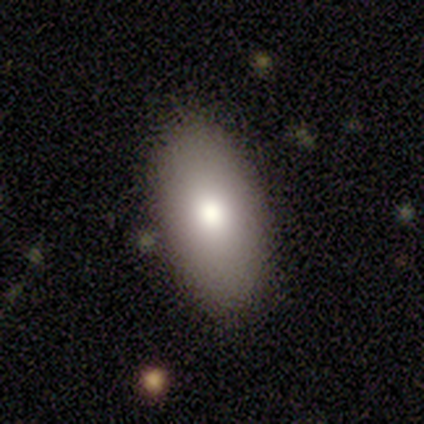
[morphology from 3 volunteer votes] Q: Smooth or featured?
A: smooth (100%)
Q: How rounded?
A: in between (100%)
Q: Merging?
A: none (100%)